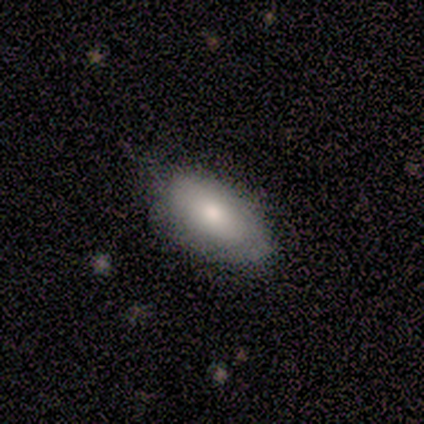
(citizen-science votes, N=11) smooth-or-featured: smooth: 73% | featured or disk: 27% | star or artifact: 0%
  how-rounded: in between: 100% | round: 0% | cigar-shaped: 0%
  merging: none: 73% | minor disturbance: 18% | major disturbance: 9% | merger: 0%